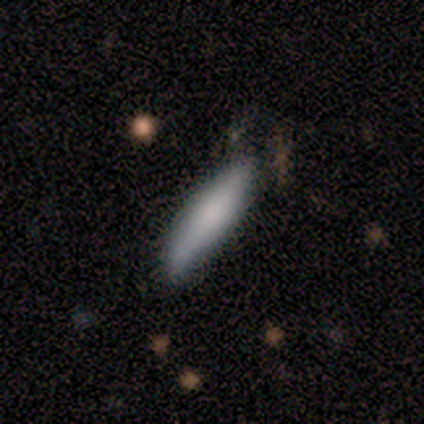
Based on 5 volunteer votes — Q: Smooth or featured?
A: featured or disk (60%); runner-up: smooth (40%)
Q: Edge-on disk?
A: yes (100%)
Q: Edge-on bulge?
A: none (67%); runner-up: rounded (33%)
Q: Merging?
A: none (80%); runner-up: minor disturbance (20%)